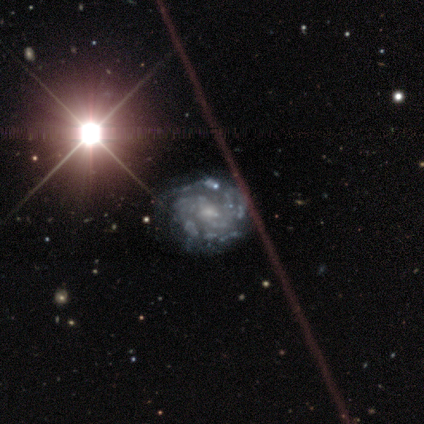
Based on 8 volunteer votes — This appears to be a featured or disk galaxy (100%) with a weak bar (50%), 2 (50%) tight (75%) spiral arms (100%) and a small central bulge (62%). Merging: none (88%).